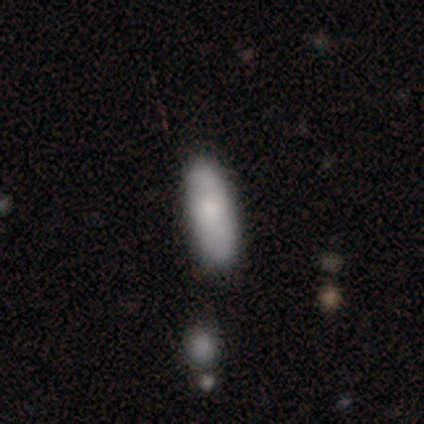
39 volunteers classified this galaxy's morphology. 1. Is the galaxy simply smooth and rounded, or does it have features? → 69% smooth, 26% featured or disk, 5% star or artifact.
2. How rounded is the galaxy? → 52% in between, 48% cigar-shaped, 0% round.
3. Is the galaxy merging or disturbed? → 62% none, 11% minor disturbance, 5% merger, 0% major disturbance.